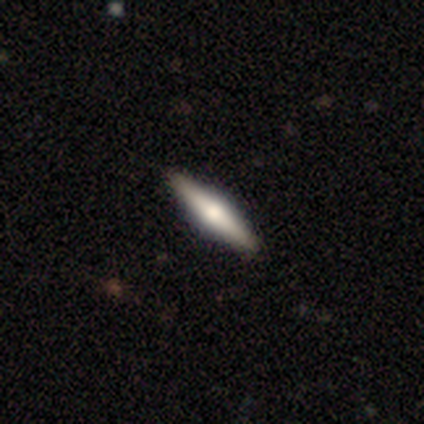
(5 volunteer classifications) A featured or disk galaxy (100%) viewed edge-on (100%) with a rounded central bulge (100%). Merging: none (80%).